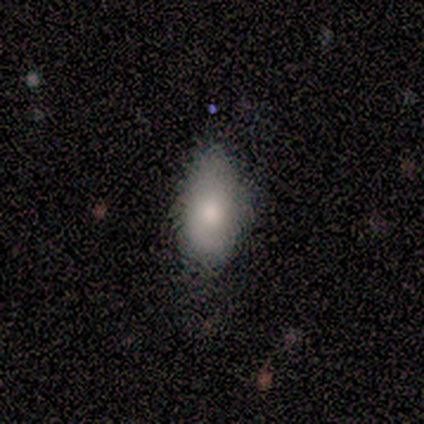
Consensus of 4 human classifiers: smooth 50% (tied), featured or disk 50% (tied), star or artifact 0%. Down the decision tree: how rounded — in between (100%); merging — none (100%).